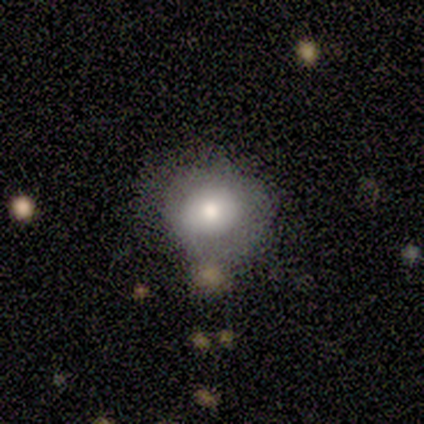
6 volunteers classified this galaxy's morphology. type=smooth (67%); roundness=round (100%); merging=none (67%).